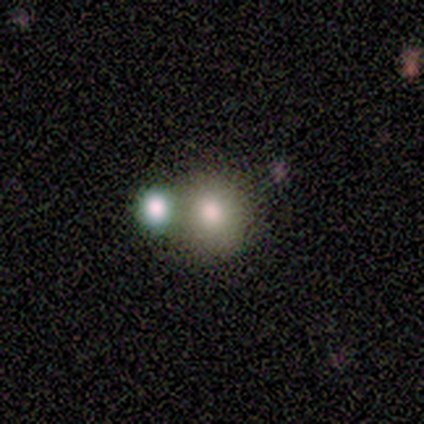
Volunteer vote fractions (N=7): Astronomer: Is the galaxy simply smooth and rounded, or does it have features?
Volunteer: smooth — 71%.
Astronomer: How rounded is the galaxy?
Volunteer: round — 80%.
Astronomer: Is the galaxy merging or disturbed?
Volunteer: none — 71%.